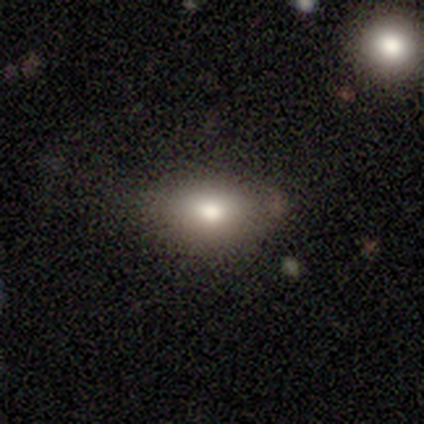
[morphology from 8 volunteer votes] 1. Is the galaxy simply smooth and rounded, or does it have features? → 100% smooth, 0% featured or disk, 0% star or artifact.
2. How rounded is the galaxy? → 100% in between, 0% round, 0% cigar-shaped.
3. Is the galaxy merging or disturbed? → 88% none, 12% major disturbance, 0% minor disturbance, 0% merger.